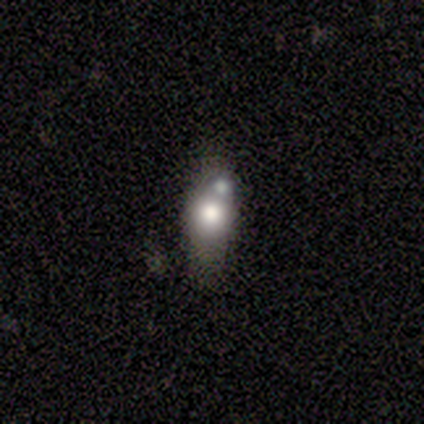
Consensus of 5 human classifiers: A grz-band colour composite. It shows a smooth galaxy with no disk features (80%) that is round (50%, tied with in between). Merging: merger (40%).